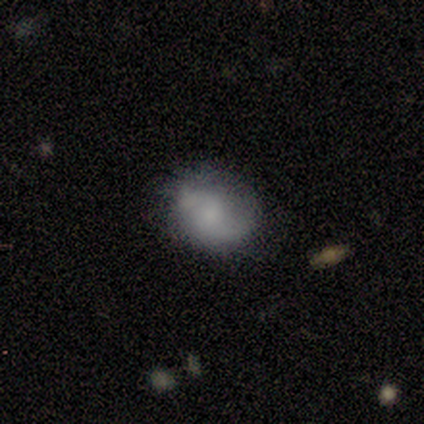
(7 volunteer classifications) Smooth or featured? 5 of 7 (71%) said smooth. How rounded? 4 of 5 (80%) said round. Merging? 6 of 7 (86%) said none.